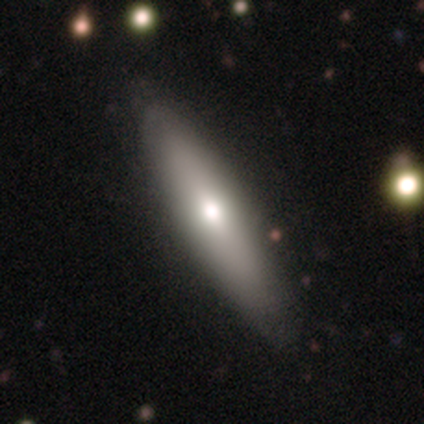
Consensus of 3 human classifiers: smooth_or_featured: smooth (p=0.67) [alt: featured or disk p=0.33]
how_rounded: cigar-shaped (p=1.00)
merging: none (p=0.67) [alt: minor disturbance p=0.33]